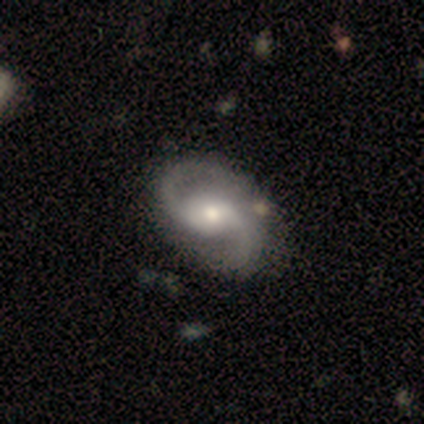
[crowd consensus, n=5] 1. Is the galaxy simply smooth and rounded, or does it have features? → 100% featured or disk, 0% smooth, 0% star or artifact.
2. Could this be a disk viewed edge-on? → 100% no, 0% yes.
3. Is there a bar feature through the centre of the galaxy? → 60% weak, 40% no, 0% strong.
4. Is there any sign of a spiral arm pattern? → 100% yes, 0% no.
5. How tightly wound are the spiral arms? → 60% loose, 40% medium, 0% tight.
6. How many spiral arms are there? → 100% 2, 0% 1, 0% 3, 0% 4, 0% more than 4, 0% can't tell.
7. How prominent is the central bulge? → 60% moderate, 20% large, 20% small, 0% dominant, 0% none.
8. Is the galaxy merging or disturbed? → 100% none, 0% minor disturbance, 0% major disturbance, 0% merger.